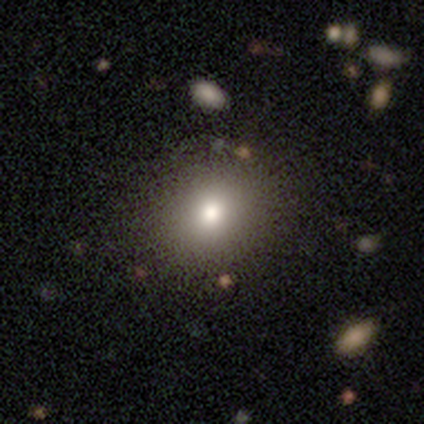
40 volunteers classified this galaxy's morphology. A smooth galaxy with no disk features (65%) that is round (77%). Merging: none (69%).